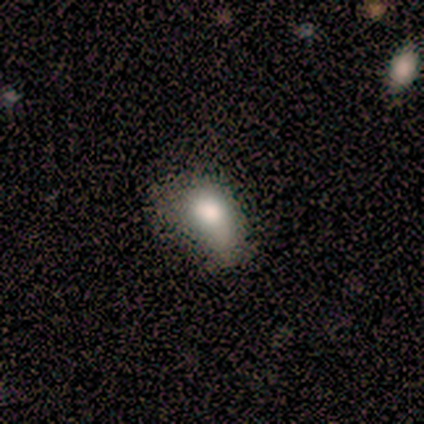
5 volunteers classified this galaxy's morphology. smooth_or_featured: smooth (p=1.00)
how_rounded: in between (p=1.00)
merging: minor disturbance (p=0.60) [alt: none p=0.40]